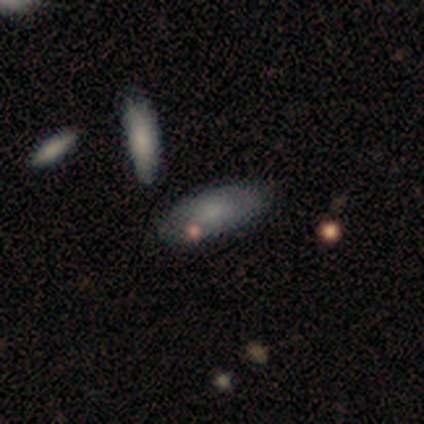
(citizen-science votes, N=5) A smooth galaxy with no disk features (80%) that is in between round and cigar-shaped (75%). Merging: none (100%).